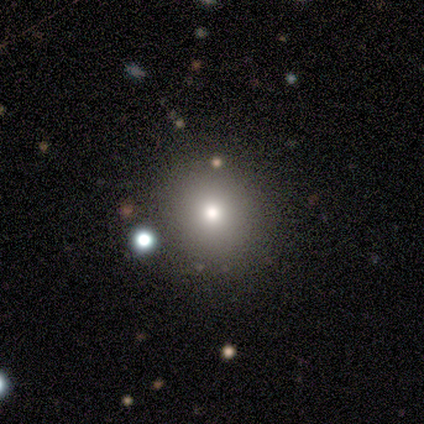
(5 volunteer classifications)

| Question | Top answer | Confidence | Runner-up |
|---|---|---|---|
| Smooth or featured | smooth | 80% | featured or disk (20%) |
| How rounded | round | 100% | — |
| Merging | none | 100% | — |